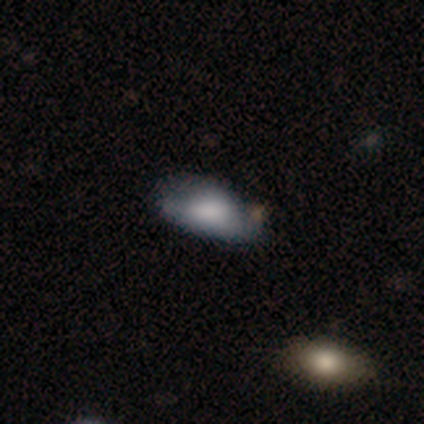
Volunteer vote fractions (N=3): A smooth galaxy with no disk features (100%) that is in between round and cigar-shaped (100%). Merging: none (100%).